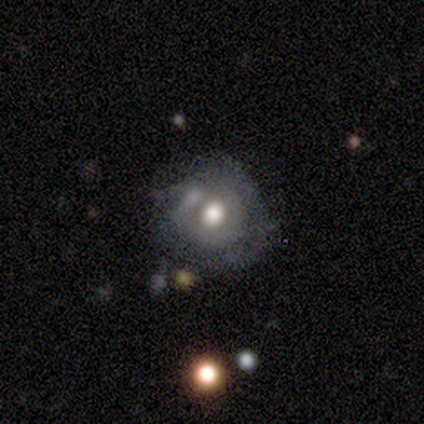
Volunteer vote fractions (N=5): A featured or disk galaxy (80%) with no bar (67%), no spiral arms (67%) and a moderate central bulge (67%). Merging: none (75%).